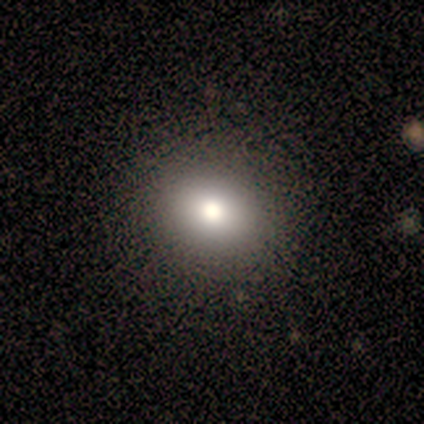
Smooth or featured? smooth (80%)
How rounded? round (75%)
Merging? none (80%)